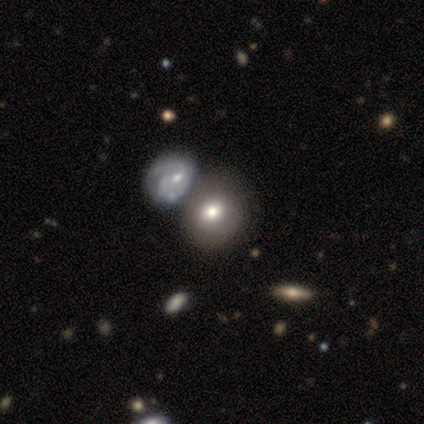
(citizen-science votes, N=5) This is clearly a smooth galaxy (80%). How rounded: likely round (75%). Merging: likely none (60%).